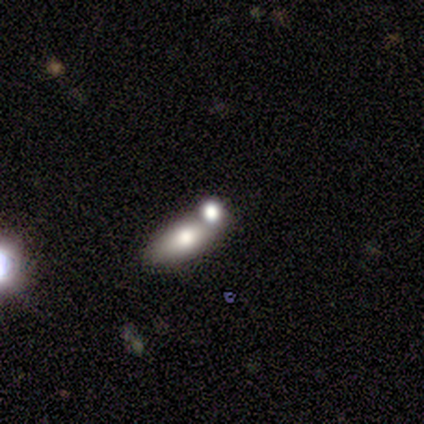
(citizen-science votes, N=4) A smooth galaxy with no disk features (75%) that is in between round and cigar-shaped (67%). Merging: none (50%, tied with minor disturbance).